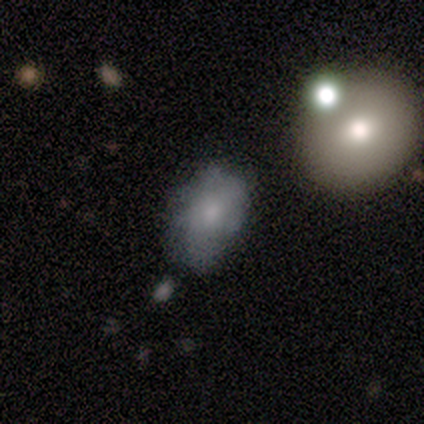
Overall: smooth (60%; featured or disk 20%). How rounded: in between (100%). Merging: merger (50%; minor disturbance 25%).